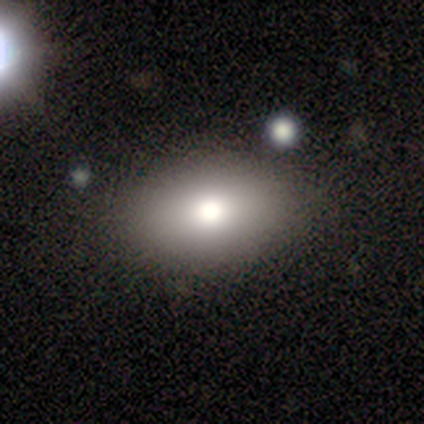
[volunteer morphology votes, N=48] Volunteers were most divided on "merging": none: 77%, minor disturbance: 19%, merger: 5%, major disturbance: 0%. More confident: how rounded — in between (92%); smooth or featured — smooth (81%).